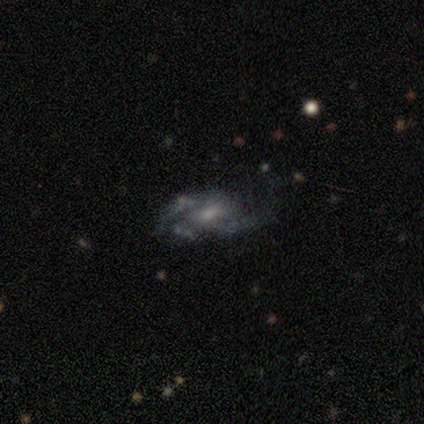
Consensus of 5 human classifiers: Overall: featured or disk (60%; smooth 20%). Edge-on disk: no (100%). Bar: no (67%; weak 33%). Spiral arms: yes (100%). Spiral arm count: 2 (67%; 3 33%). Spiral winding: medium (67%; loose 33%). Bulge size: small (67%; moderate 33%). Merging: major disturbance (50%; none 25%).